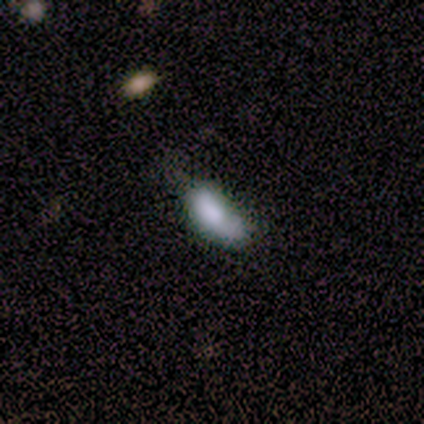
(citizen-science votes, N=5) A smooth galaxy with no disk features (60%) that is in between round and cigar-shaped (67%). Merging: major disturbance (50%).